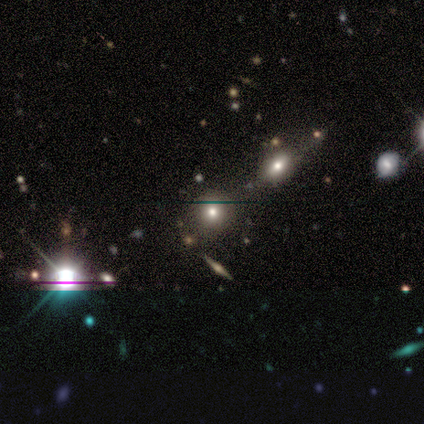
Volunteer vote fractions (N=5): Volunteers were most divided on "smooth or featured" (2-way tie): smooth: 40%, star or artifact: 40%, featured or disk: 20%. More confident: how rounded — round (100%); merging — none (67%).